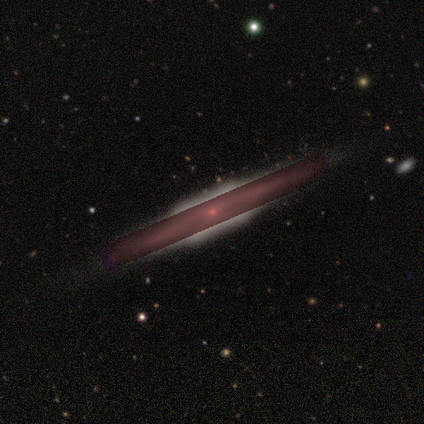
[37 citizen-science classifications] smooth_or_featured: featured or disk (p=0.46) [tied with: star or artifact p=0.46]
disk_edge_on: yes (p=0.94) [alt: no p=0.06]
edge_on_bulge: boxy (p=0.75) [alt: rounded p=0.19]
merging: none (p=0.85) [alt: major disturbance p=0.10]